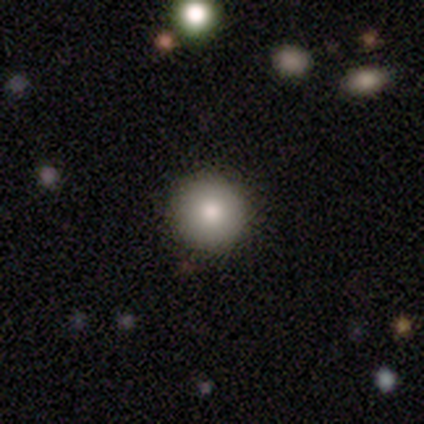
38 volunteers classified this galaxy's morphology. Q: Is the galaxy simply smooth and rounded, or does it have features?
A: smooth — 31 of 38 (82%).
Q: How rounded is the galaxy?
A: round — 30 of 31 (97%).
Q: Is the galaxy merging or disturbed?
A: none — 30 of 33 (91%).